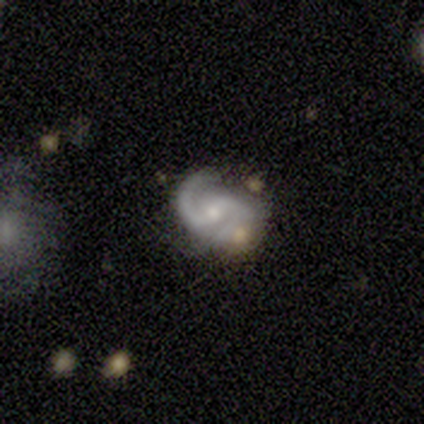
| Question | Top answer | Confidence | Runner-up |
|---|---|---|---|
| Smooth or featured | featured or disk | 90% | smooth (7%) |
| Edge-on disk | no | 97% | yes (3%) |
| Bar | weak | 44% | no (42%) |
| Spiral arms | yes | 92% | no (8%) |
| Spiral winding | medium | 61% | tight (21%) |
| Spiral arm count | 2 | 94% | 1 (6%) |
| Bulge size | moderate | 53% | small (39%) |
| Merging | none | 45% | minor disturbance (25%) |